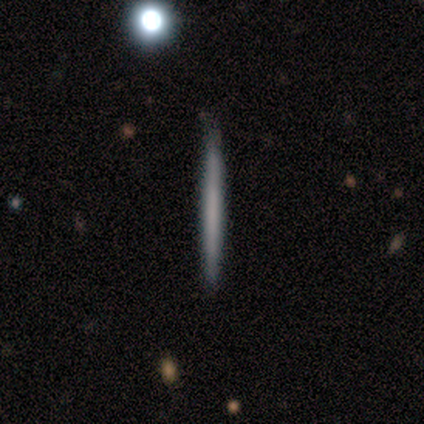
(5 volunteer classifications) Q: Smooth or featured?
A: featured or disk (60%); runner-up: smooth (40%)
Q: Edge-on disk?
A: yes (100%)
Q: Edge-on bulge?
A: none (100%)
Q: Merging?
A: none (60%); runner-up: minor disturbance (40%)